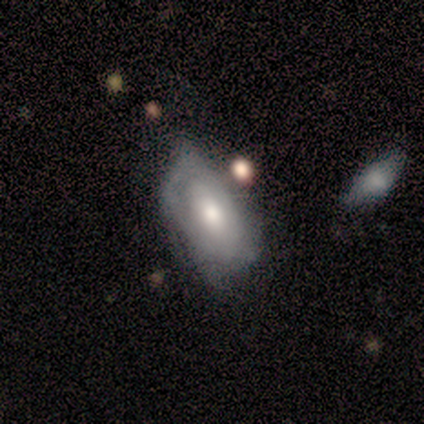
smooth-or-featured: smooth: 80% | featured or disk: 20% | star or artifact: 0%
  how-rounded: in between: 100% | round: 0% | cigar-shaped: 0%
  merging: none: 60% | minor disturbance: 20% | merger: 20% | major disturbance: 0%